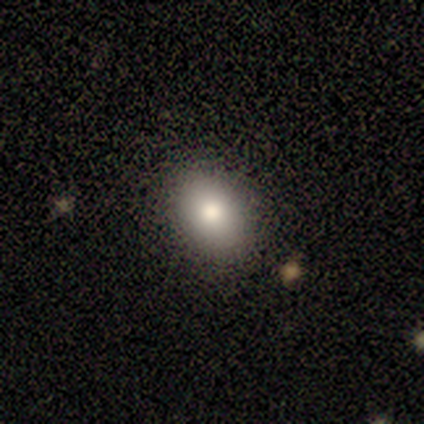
Smooth or featured: smooth — 80% (star or artifact — 20%)
How rounded: in between — 75% (round — 25%)
Merging: none — 100%